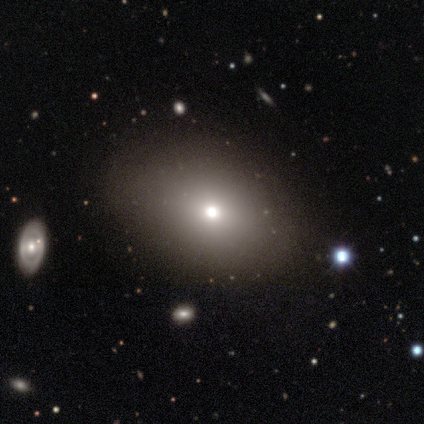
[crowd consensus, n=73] Smooth or featured?
  - smooth: 84% *
  - star or artifact: 12%
  - featured or disk: 4%
How rounded?
  - in between: 57% *
  - round: 43%
  - cigar-shaped: 0%
Merging?
  - none: 45% *
  - minor disturbance: 3%
  - merger: 2%
  - major disturbance: 0%